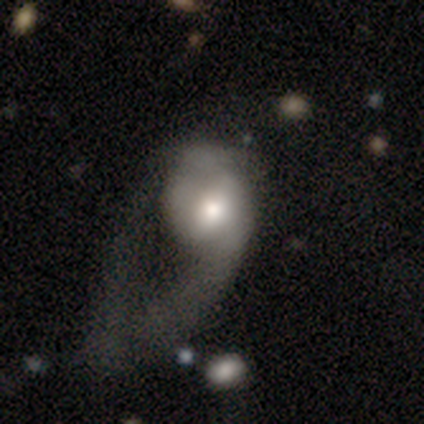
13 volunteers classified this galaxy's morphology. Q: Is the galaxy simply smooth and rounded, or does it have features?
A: smooth — 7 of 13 (54%).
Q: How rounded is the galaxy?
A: round — 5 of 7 (71%).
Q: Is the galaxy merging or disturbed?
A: major disturbance — 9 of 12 (75%).